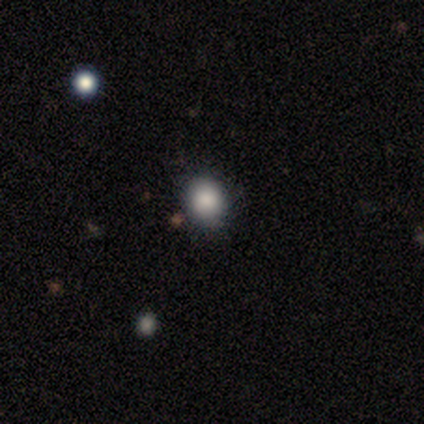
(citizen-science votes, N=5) smooth 100%, featured or disk 0%, star or artifact 0%. Down the decision tree: how rounded — round (100%); merging — none (100%).